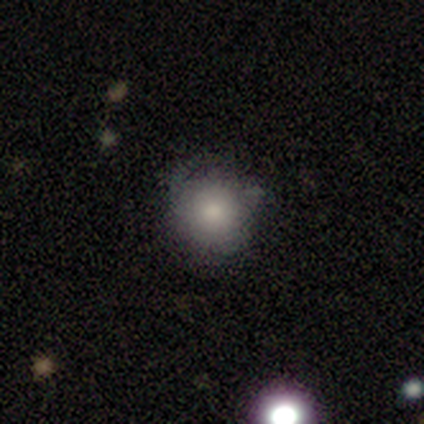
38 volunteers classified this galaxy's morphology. This appears to be a smooth galaxy with no disk features (74%) that is round (96%). Merging: none (53%).